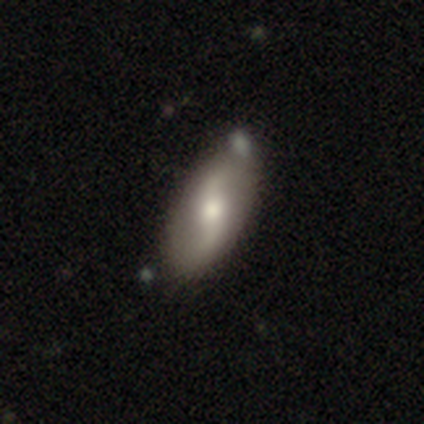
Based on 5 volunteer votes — Smooth or featured? 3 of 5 (60%) said featured or disk. Edge-on disk? 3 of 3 (100%) said no. Bar? 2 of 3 (67%) said weak. Spiral arms? 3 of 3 (100%) said yes. Spiral winding? 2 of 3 (67%) said loose. Spiral arm count? 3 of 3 (100%) said 2. Bulge size? 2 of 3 (67%) said large. Merging? 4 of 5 (80%) said none.